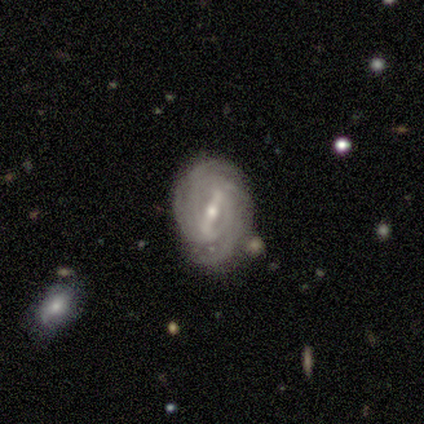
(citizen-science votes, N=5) smooth_or_featured: featured or disk (p=1.00)
disk_edge_on: no (p=1.00)
bar: strong (p=0.80) [alt: weak p=0.20]
has_spiral_arms: yes (p=0.80) [alt: no p=0.20]
spiral_winding: tight (p=1.00)
spiral_arm_count: 4 (p=0.50) [tied with: can't tell p=0.50]
bulge_size: small (p=0.60) [alt: moderate p=0.40]
merging: none (p=0.80) [alt: major disturbance p=0.20]